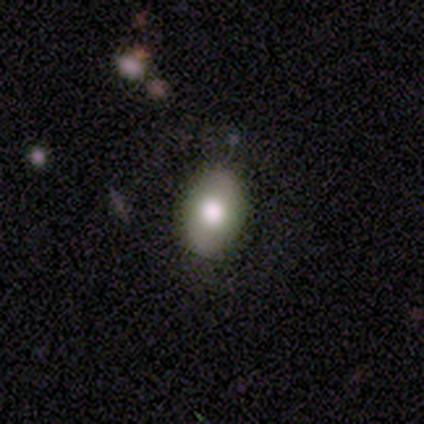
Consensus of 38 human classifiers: smooth-or-featured: smooth: 87% | star or artifact: 8% | featured or disk: 5%
  how-rounded: in between: 82% | round: 18% | cigar-shaped: 0%
  merging: none: 86% | minor disturbance: 14% | major disturbance: 0% | merger: 0%